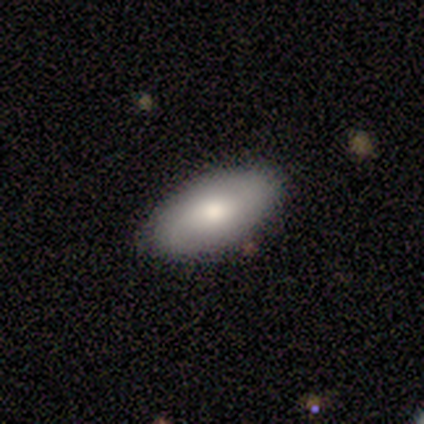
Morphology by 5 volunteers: smooth 80%, featured or disk 20%, star or artifact 0%. Down the decision tree: how rounded — in between (100%); merging — none (100%).